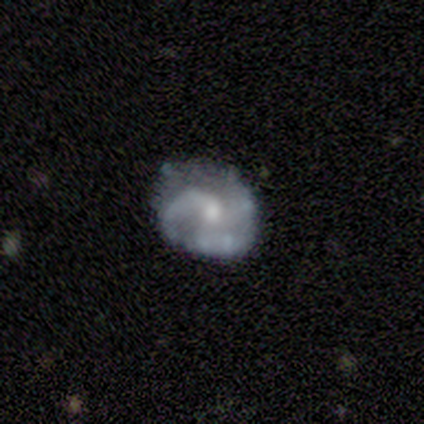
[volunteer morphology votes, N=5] Smooth or featured? featured or disk (80%)
Edge-on disk? no (100%)
Bar? no (75%)
Spiral arms? yes (100%)
Spiral winding? medium (50%)
Spiral arm count? 1 (50%)
Bulge size? small (75%)
Merging? none (60%)